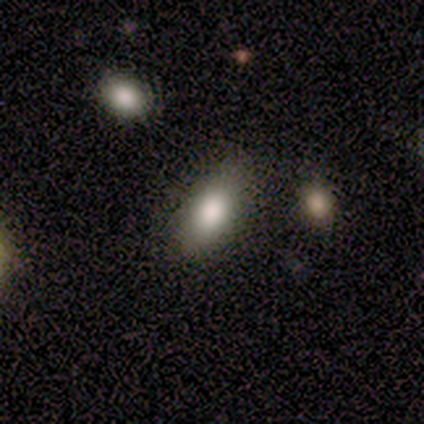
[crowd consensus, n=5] Smooth or featured: smooth — 80% (featured or disk — 20%)
How rounded: in between — 100%
Merging: none — 60% (minor disturbance — 20%)